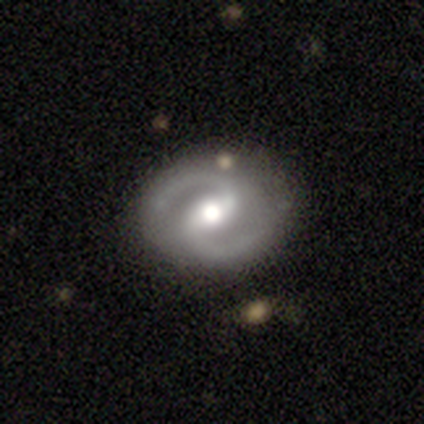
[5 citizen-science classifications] A featured or disk galaxy (80%) with no bar (50%), 2 (100%) medium (100%) spiral arms (100%) and a moderate central bulge (75%). Merging: none (100%).